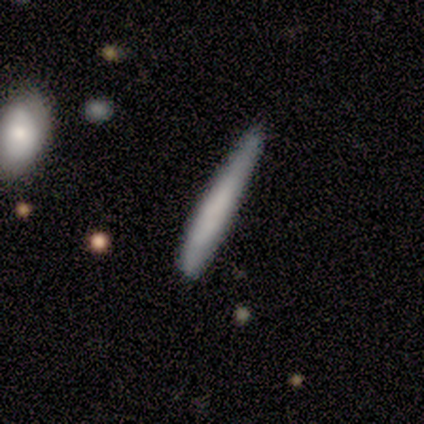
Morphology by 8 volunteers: A smooth galaxy with no disk features (50%, tied with featured or disk) that is cigar-shaped (100%).

Vote fractions:
- Smooth or featured? smooth: 50% (tied) / featured or disk: 50% (tied) / star or artifact: 0%
- How rounded? cigar-shaped: 100% / round: 0% / in between: 0%
- Merging? none: 75% / minor disturbance: 25% / major disturbance: 0% / merger: 0%